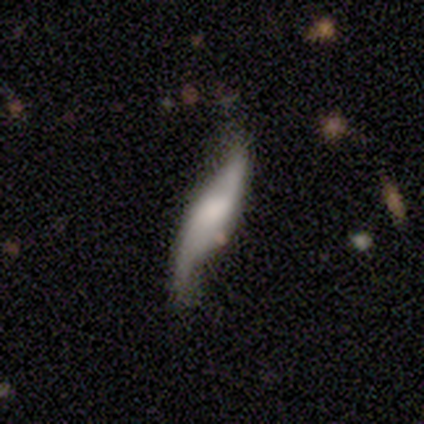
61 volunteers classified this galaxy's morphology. Q: Smooth or featured?
A: featured or disk (72%); runner-up: smooth (23%)
Q: Edge-on disk?
A: no (66%); runner-up: yes (34%)
Q: Bar?
A: no (48%); runner-up: weak (31%)
Q: Spiral arms?
A: yes (97%); runner-up: no (3%)
Q: Spiral winding?
A: loose (89%); runner-up: medium (7%)
Q: Spiral arm count?
A: 2 (96%); runner-up: can't tell (4%)
Q: Bulge size?
A: none (31%); runner-up: moderate (28%)
Q: Merging?
A: none (60%); runner-up: minor disturbance (26%)